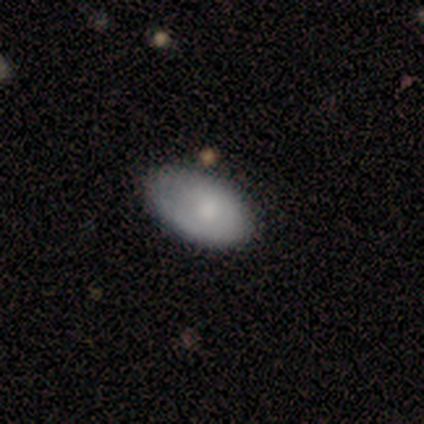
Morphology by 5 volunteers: Smooth or featured? 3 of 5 (60%) said smooth. How rounded? 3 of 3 (100%) said in between. Merging? 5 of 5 (100%) said none.